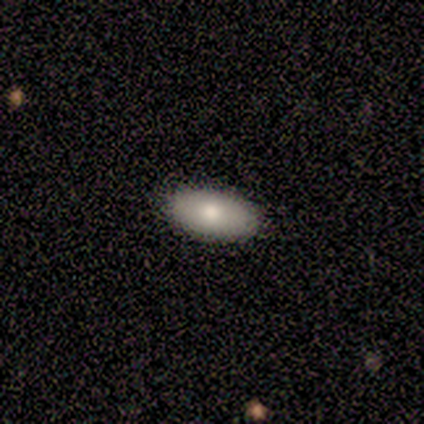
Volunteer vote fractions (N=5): smooth-or-featured: smooth: 100% | featured or disk: 0% | star or artifact: 0%
  how-rounded: in between: 100% | round: 0% | cigar-shaped: 0%
  merging: none: 100% | minor disturbance: 0% | major disturbance: 0% | merger: 0%